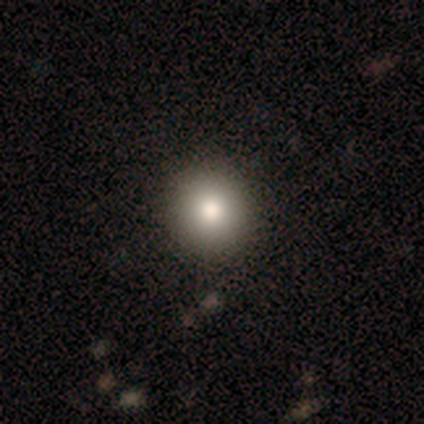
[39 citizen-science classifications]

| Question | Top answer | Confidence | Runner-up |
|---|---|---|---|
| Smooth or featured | smooth | 82% | star or artifact (10%) |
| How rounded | round | 91% | in between (9%) |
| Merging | none | 60% | minor disturbance (3%) |